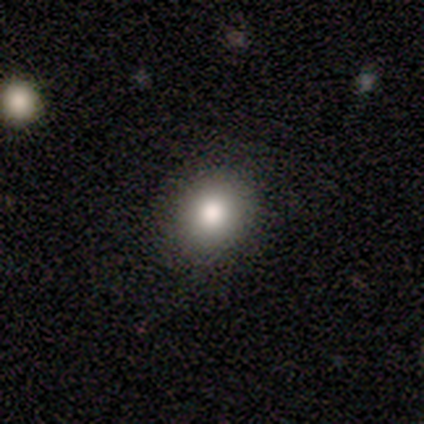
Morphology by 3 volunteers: Smooth or featured? smooth (100%)
How rounded? round (100%)
Merging? none (100%)